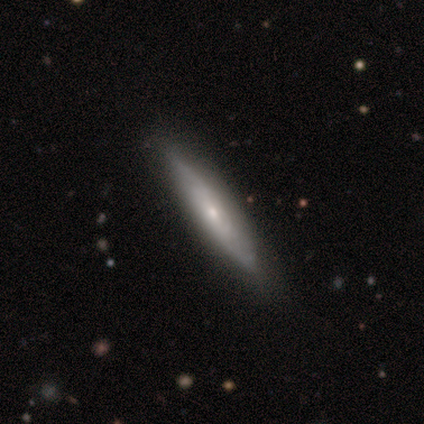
Q: Smooth or featured?
A: featured or disk (52%); runner-up: smooth (48%)
Q: Edge-on disk?
A: yes (62%); runner-up: no (38%)
Q: Edge-on bulge?
A: none (46%); tied with: rounded (46%)
Q: Merging?
A: none (90%); runner-up: minor disturbance (8%)